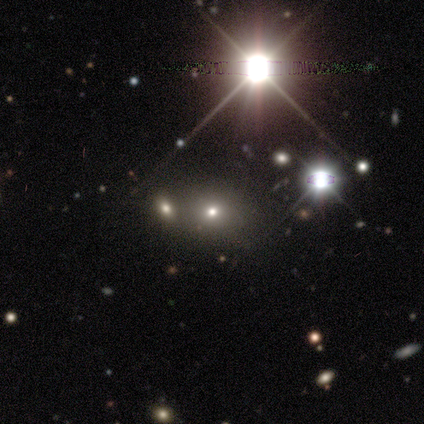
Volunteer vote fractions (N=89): Q: Smooth or featured?
A: star or artifact (55%); runner-up: smooth (36%)